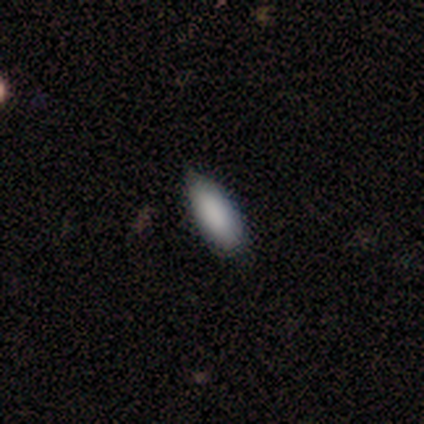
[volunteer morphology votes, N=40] Smooth or featured: smooth — 92% (featured or disk — 5%)
How rounded: in between — 73% (cigar-shaped — 27%)
Merging: none — 56% (minor disturbance — 44%)